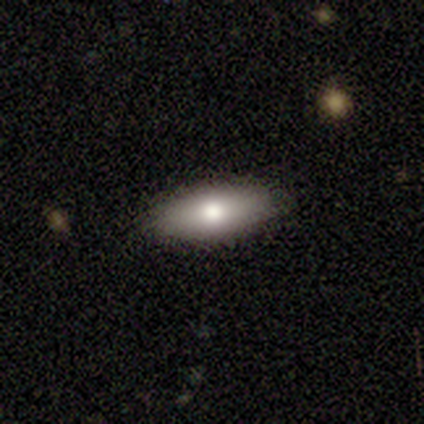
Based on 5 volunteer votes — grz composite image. It shows a smooth galaxy with no disk features (60%) that is in between round and cigar-shaped (100%). Merging: none (60%).